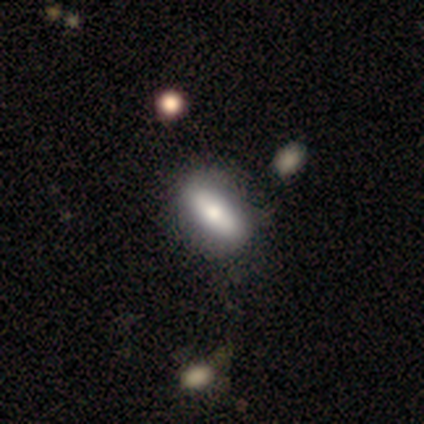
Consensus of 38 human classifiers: smooth 58%, featured or disk 39%, star or artifact 3%. Down the decision tree: how rounded — in between (68%); merging — none (59%).